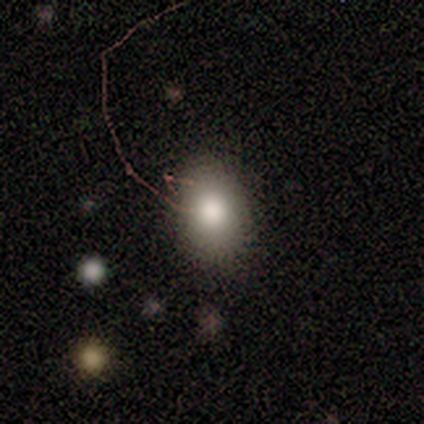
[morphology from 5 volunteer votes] smooth-or-featured: smooth: 80% | featured or disk: 20% | star or artifact: 0%
  how-rounded: in between: 100% | round: 0% | cigar-shaped: 0%
  merging: none: 80% | minor disturbance: 20% | major disturbance: 0% | merger: 0%